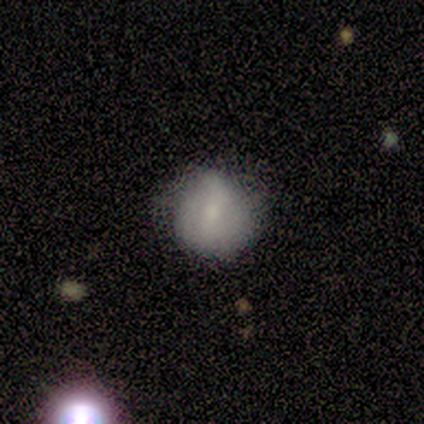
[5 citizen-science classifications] Smooth or featured? 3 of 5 (60%) said smooth. How rounded? 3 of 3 (100%) said round. Merging? 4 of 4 (100%) said none.